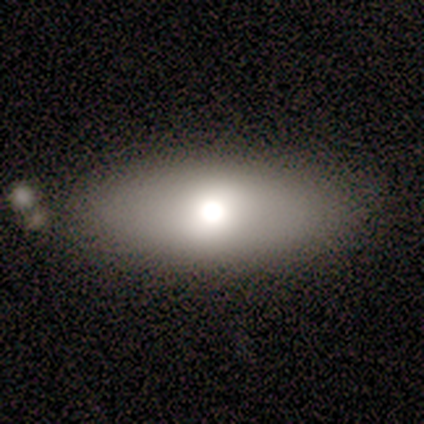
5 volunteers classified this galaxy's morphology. smooth_or_featured: smooth (p=0.60) [alt: featured or disk p=0.20]
how_rounded: in between (p=1.00)
merging: none (p=1.00)